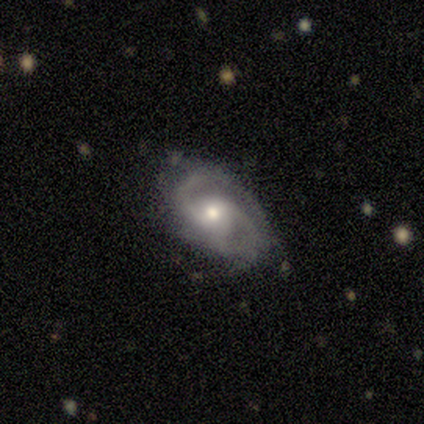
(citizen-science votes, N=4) Overall: featured or disk (75%). Edge-on disk: no (100%). Bar: weak (67%; no 33%). Spiral arms: yes (100%). Spiral arm count: 2 (100%). Spiral winding: tight (33%, tied with medium and loose). Bulge size: moderate (67%; small 33%). Merging: minor disturbance (67%; major disturbance 33%).